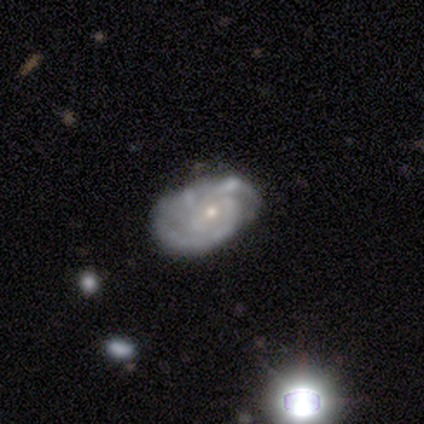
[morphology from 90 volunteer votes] smooth_or_featured: featured or disk (p=0.82) [alt: smooth p=0.11]
disk_edge_on: no (p=0.96) [alt: yes p=0.04]
bar: no (p=0.63) [alt: weak p=0.37]
has_spiral_arms: yes (p=0.90) [alt: no p=0.10]
spiral_winding: tight (p=0.62) [alt: medium p=0.27]
spiral_arm_count: 3 (p=0.33) [alt: 2 p=0.30]
bulge_size: small (p=0.77) [alt: moderate p=0.20]
merging: none (p=0.61) [alt: minor disturbance p=0.37]